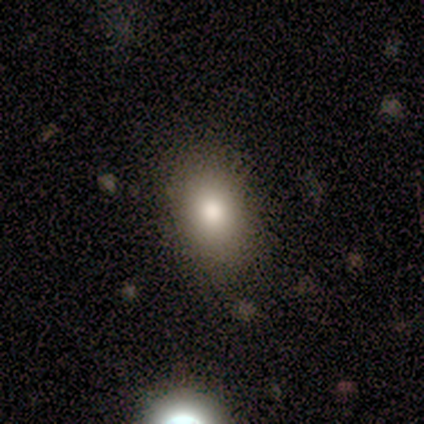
Overall: smooth (78%). How rounded: in between (71%). Merging: none (89%).